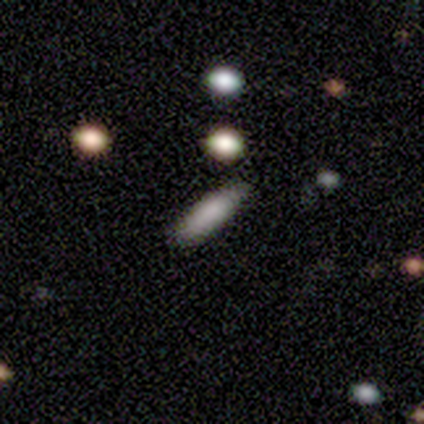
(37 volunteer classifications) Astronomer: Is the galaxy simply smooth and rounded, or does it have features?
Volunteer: smooth — 76%.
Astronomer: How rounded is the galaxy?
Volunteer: cigar-shaped — 61% (runner-up: in between, 39%).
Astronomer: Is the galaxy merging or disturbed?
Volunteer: none — 81%.